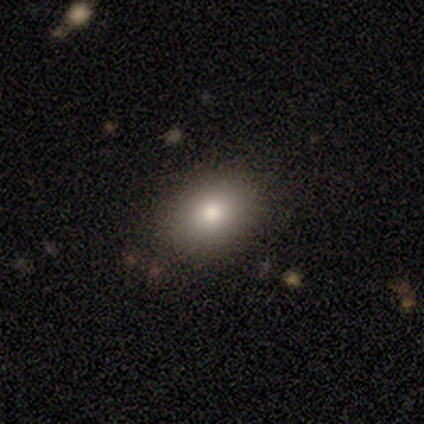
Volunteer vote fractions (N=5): Smooth or featured: smooth — 80% (featured or disk — 20%)
How rounded: round — 75% (in between — 25%)
Merging: none — 100%